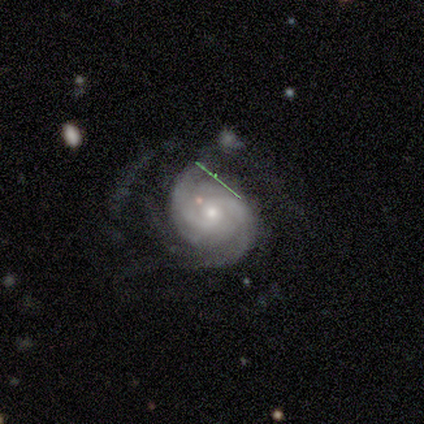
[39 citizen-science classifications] Smooth or featured? featured or disk (97%)
Edge-on disk? no (95%)
Bar? no (75%)
Spiral arms? yes (100%)
Spiral winding? tight (56%)
Spiral arm count? 2 (50%)
Bulge size? moderate (50%)
Merging? none (45%)